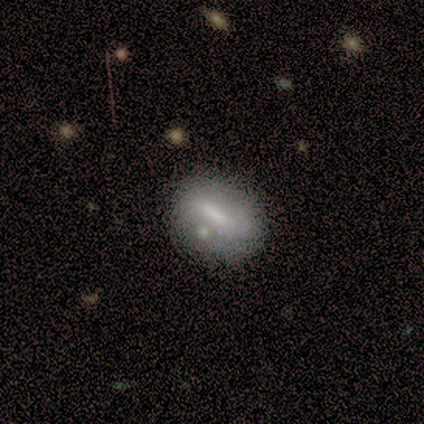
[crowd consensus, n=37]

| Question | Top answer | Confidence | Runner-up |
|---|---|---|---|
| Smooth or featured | featured or disk | 49% | smooth (43%) |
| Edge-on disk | no | 94% | yes (6%) |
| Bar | strong | 53% | weak (35%) |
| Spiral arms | no | 53% | yes (47%) |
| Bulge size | small | 41% | moderate (29%) |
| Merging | none | 44% | merger (21%) |